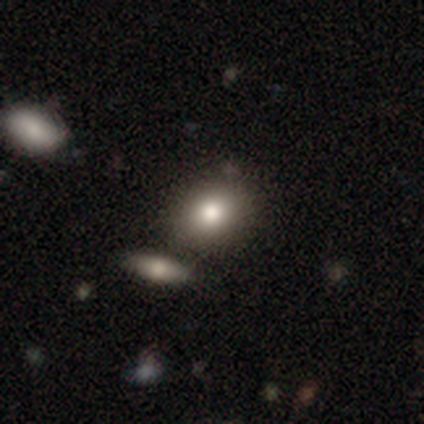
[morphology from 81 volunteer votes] Overall: smooth (81%). How rounded: round (62%; in between 38%). Merging: none (46%; merger 21%).